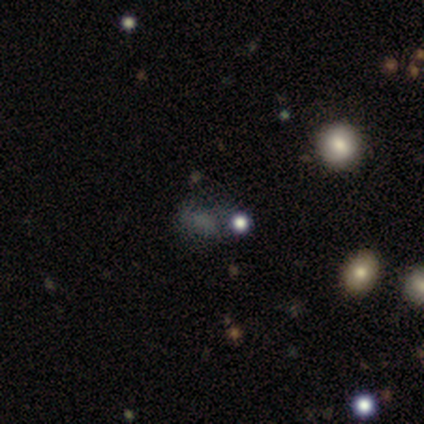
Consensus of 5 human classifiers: Smooth or featured: star or artifact — 60% (smooth — 20%)